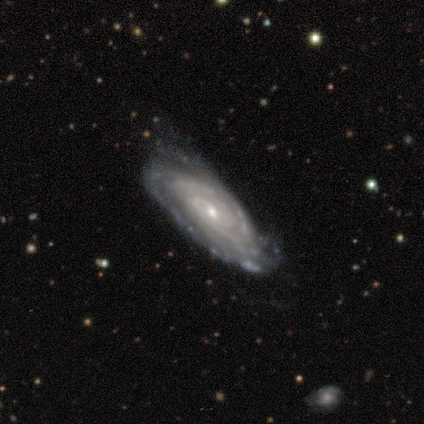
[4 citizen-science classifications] Smooth or featured? featured or disk (100%)
Edge-on disk? no (100%)
Bar? no (100%)
Spiral arms? yes (100%)
Spiral winding? tight (100%)
Spiral arm count? can't tell (100%)
Bulge size? small (75%)
Merging? none (100%)